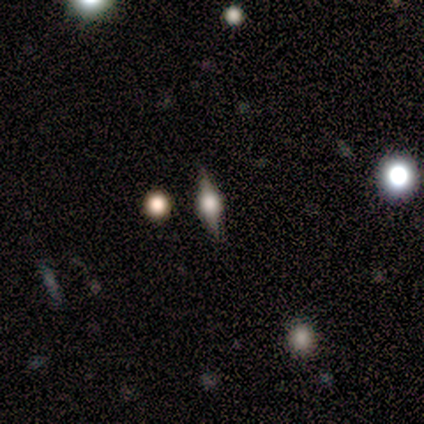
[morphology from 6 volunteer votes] featured or disk 67%, smooth 17%, star or artifact 17%. Down the decision tree: edge-on disk — yes (75%); edge-on bulge — rounded (100%); merging — none (60%).